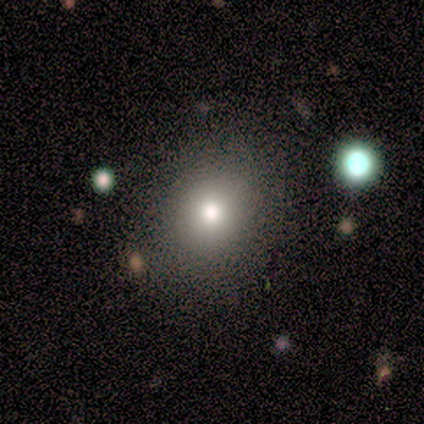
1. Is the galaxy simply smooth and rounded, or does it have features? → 83% smooth, 17% featured or disk, 0% star or artifact.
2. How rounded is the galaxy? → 60% round, 40% in between, 0% cigar-shaped.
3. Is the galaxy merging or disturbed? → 83% none, 17% minor disturbance, 0% major disturbance, 0% merger.